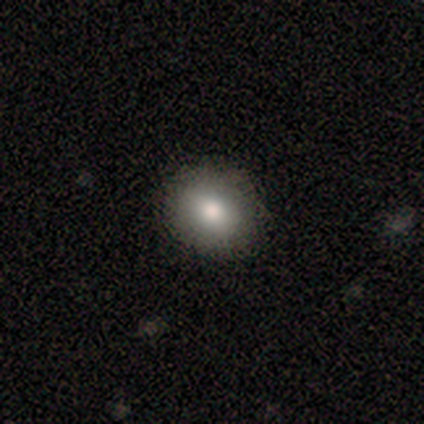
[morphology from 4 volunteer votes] smooth_or_featured: smooth (p=0.50) [alt: featured or disk p=0.25]
how_rounded: round (p=1.00)
merging: none (p=1.00)